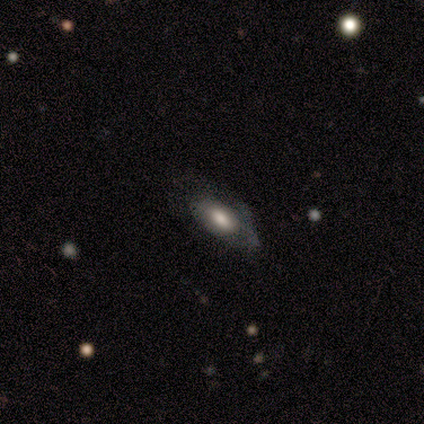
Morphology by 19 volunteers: Smooth or featured: featured or disk — 53% (smooth — 47%)
Edge-on disk: no — 100%
Bar: no — 70% (weak — 30%)
Spiral arms: yes — 50% (tied with no — 50%)
Spiral winding: tight — 40% (tied with loose — 40%)
Spiral arm count: can't tell — 100%
Bulge size: large — 60% (moderate — 20%)
Merging: none — 58% (minor disturbance — 26%)